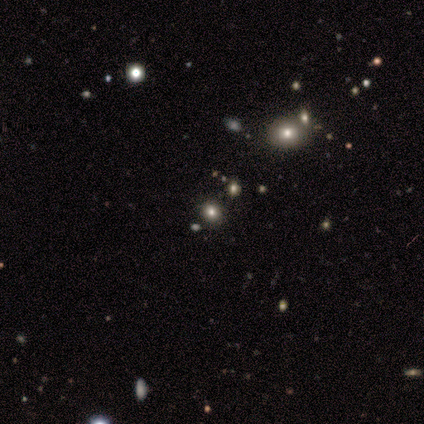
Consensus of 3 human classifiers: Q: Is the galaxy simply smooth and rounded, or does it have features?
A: star or artifact — 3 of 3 (100%).